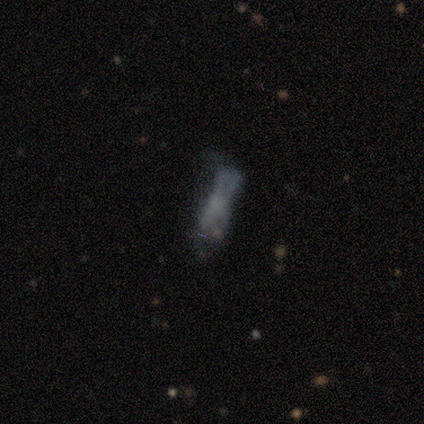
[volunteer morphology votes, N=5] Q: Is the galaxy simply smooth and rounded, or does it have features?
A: smooth — 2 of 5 (40%, tied with featured or disk).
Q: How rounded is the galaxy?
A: in between — 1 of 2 (50%, tied with cigar-shaped).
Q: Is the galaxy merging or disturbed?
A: none — 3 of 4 (75%).